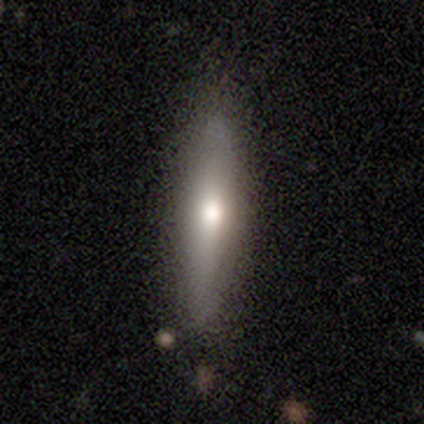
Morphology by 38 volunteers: smooth_or_featured: smooth (p=0.66) [alt: featured or disk p=0.32]
how_rounded: cigar-shaped (p=0.76) [alt: in between p=0.24]
merging: none (p=0.54) [alt: minor disturbance p=0.11]